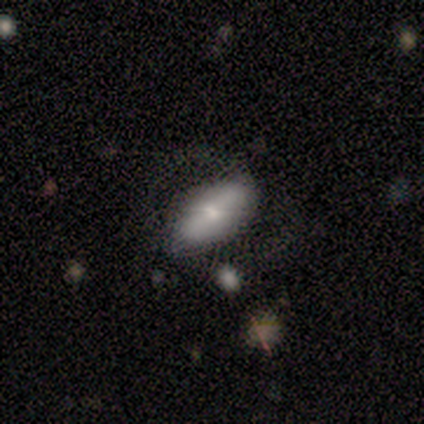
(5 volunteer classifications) smooth 100%, featured or disk 0%, star or artifact 0%. Down the decision tree: how rounded — in between (80%); merging — none (60%).